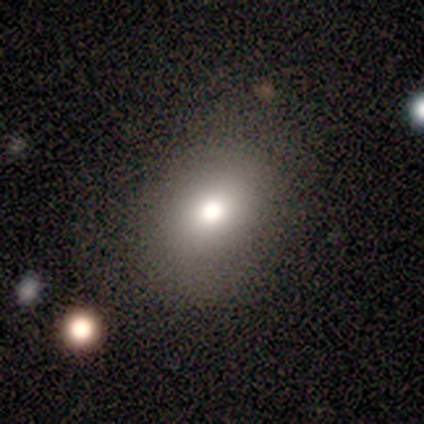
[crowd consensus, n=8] Q: Smooth or featured?
A: smooth (75%); runner-up: star or artifact (25%)
Q: How rounded?
A: in between (67%); runner-up: round (33%)
Q: Merging?
A: none (83%); runner-up: minor disturbance (17%)